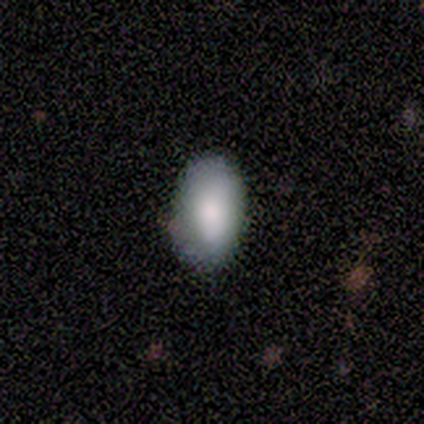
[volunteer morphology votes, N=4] A smooth galaxy with no disk features (100%) that is in between round and cigar-shaped (100%). Merging: none (100%).